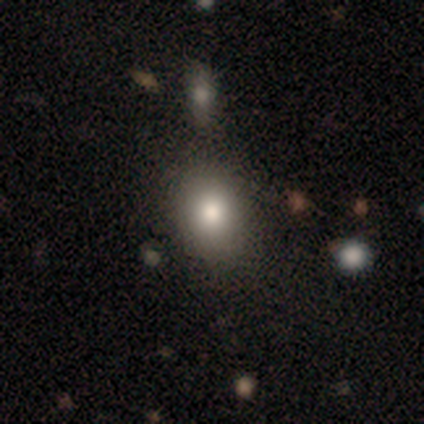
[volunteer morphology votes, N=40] This appears to be a smooth galaxy with no disk features (82%) that is in between round and cigar-shaped (67%). Merging: none (50%).